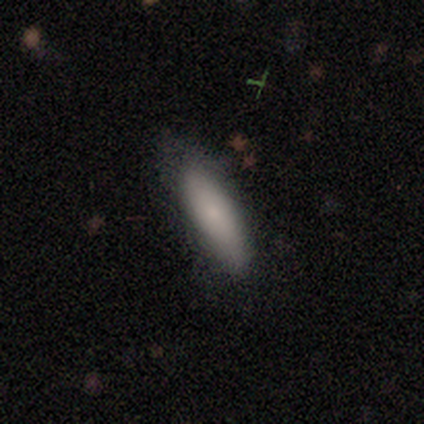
Q: Smooth or featured?
A: smooth (77%); runner-up: featured or disk (21%)
Q: How rounded?
A: in between (57%); runner-up: cigar-shaped (43%)
Q: Merging?
A: none (71%); runner-up: minor disturbance (26%)